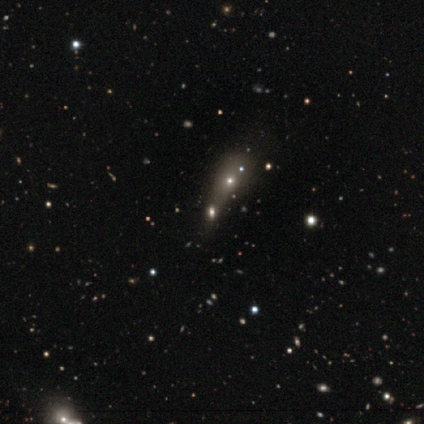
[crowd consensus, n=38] Smooth or featured? 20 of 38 (53%) said star or artifact.